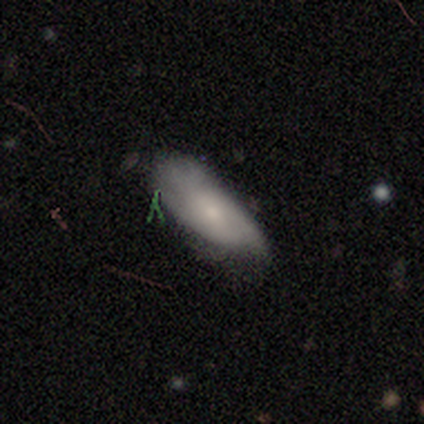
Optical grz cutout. It shows a smooth galaxy with no disk features (56%) that is in between round and cigar-shaped (80%). Merging: none (50%).